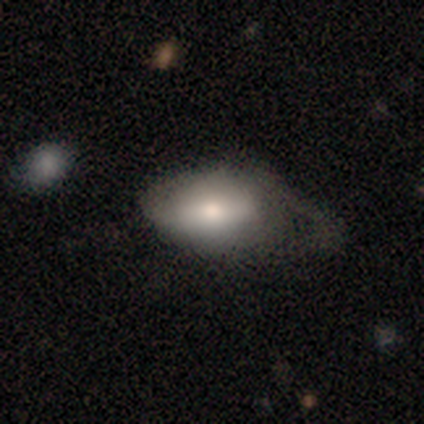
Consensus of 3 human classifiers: smooth_or_featured: smooth (p=1.00)
how_rounded: in between (p=0.67) [alt: round p=0.33]
merging: none (p=0.33) [tied with: minor disturbance p=0.33, major disturbance p=0.33]